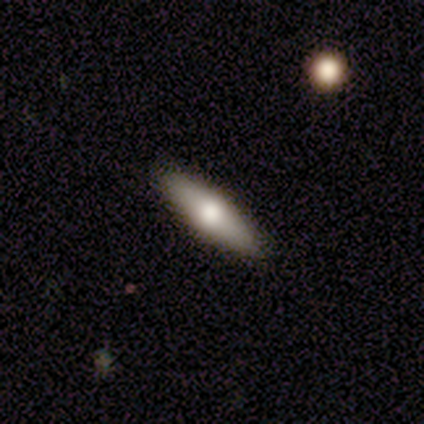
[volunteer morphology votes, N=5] smooth-or-featured: smooth: 40% (tied) | featured or disk: 40% (tied) | star or artifact: 20%
  how-rounded: in between: 100% | round: 0% | cigar-shaped: 0%
  merging: none: 100% | minor disturbance: 0% | major disturbance: 0% | merger: 0%